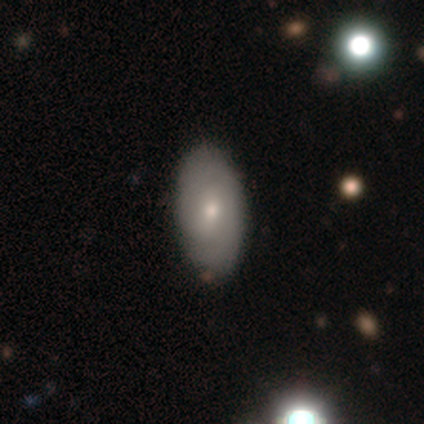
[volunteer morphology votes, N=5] smooth_or_featured: featured or disk (p=0.60) [alt: smooth p=0.40]
disk_edge_on: no (p=1.00)
bar: weak (p=0.67) [alt: strong p=0.33]
has_spiral_arms: yes (p=1.00)
spiral_winding: medium (p=0.67) [alt: tight p=0.33]
spiral_arm_count: 2 (p=0.67) [alt: can't tell p=0.33]
bulge_size: small (p=0.67) [alt: moderate p=0.33]
merging: none (p=1.00)